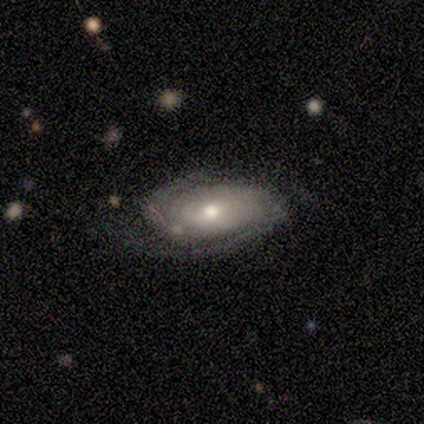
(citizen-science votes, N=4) Q: Smooth or featured?
A: featured or disk (100%)
Q: Edge-on disk?
A: no (100%)
Q: Bar?
A: no (75%); runner-up: weak (25%)
Q: Spiral arms?
A: yes (100%)
Q: Spiral winding?
A: tight (75%); runner-up: loose (25%)
Q: Spiral arm count?
A: 2 (100%)
Q: Bulge size?
A: moderate (75%); runner-up: small (25%)
Q: Merging?
A: none (50%); runner-up: major disturbance (25%)